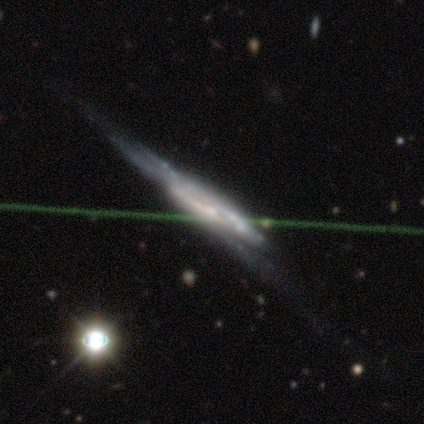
Volunteers were most divided on "smooth or featured": star or artifact: 50%, smooth: 25%, featured or disk: 25%.